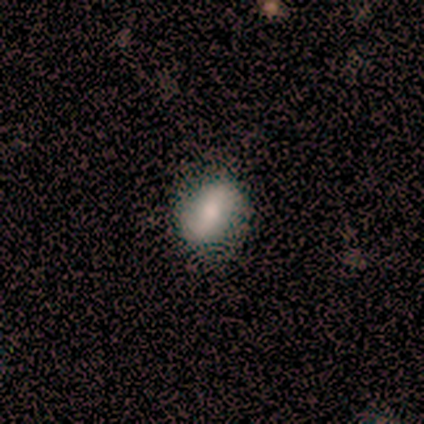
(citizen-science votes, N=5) Smooth or featured? 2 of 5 (40%, tied with featured or disk) said smooth. How rounded? 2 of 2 (100%) said in between. Merging? 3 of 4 (75%) said none.